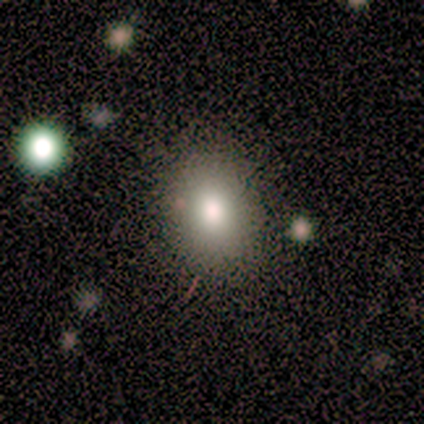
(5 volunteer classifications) This appears to be a smooth galaxy with no disk features (100%) that is in between round and cigar-shaped (80%). Merging: none (80%).